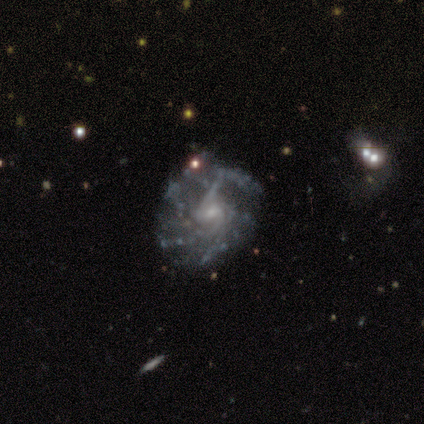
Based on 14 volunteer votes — Morphology: type=featured or disk (86%); edge-on=no (100%); bar=weak (50%, tied with no); spiral arms=yes (100%); winding=tight (42%); arm count=4 (42%); bulge=small (50%); merging=none (67%).